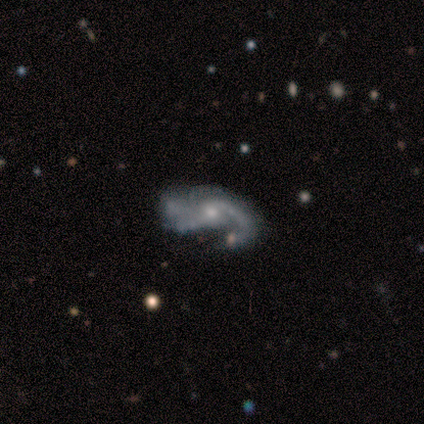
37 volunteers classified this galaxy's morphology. This appears to be a featured or disk galaxy (89%) with no bar (72%), 2 (36%) medium (54%) spiral arms (88%) and a moderate central bulge (50%). Merging: major disturbance (32%).